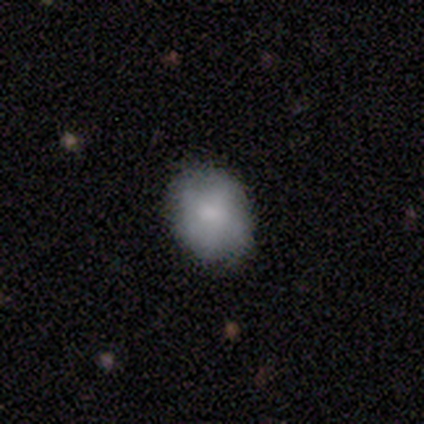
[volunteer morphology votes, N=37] A smooth galaxy with no disk features (73%) that is in between round and cigar-shaped (52%).

Vote fractions:
- Smooth or featured? smooth: 73% / star or artifact: 16% / featured or disk: 11%
- How rounded? in between: 52% / round: 48% / cigar-shaped: 0%
- Merging? none: 94% / minor disturbance: 6% / major disturbance: 0% / merger: 0%